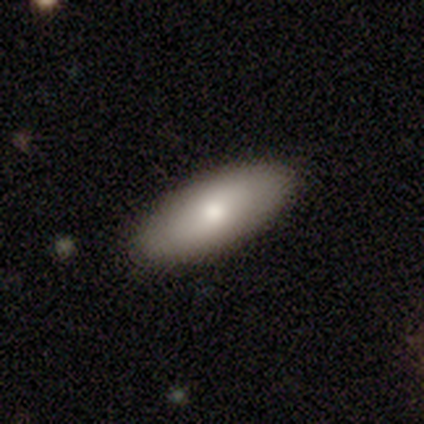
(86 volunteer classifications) Morphology: type=smooth (77%); roundness=in between (68%); merging=none (87%).